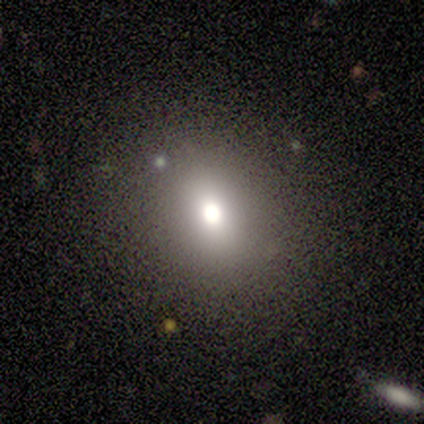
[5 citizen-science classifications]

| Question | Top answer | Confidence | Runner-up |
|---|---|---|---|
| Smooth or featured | star or artifact | 60% | smooth (40%) |